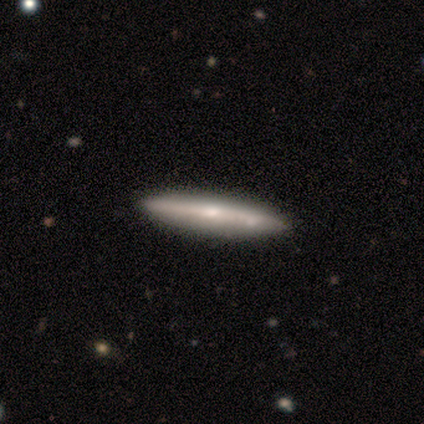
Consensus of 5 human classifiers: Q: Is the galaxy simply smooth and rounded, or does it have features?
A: featured or disk — 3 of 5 (60%).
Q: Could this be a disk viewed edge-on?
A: yes — 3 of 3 (100%).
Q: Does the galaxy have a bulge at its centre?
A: rounded — 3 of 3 (100%).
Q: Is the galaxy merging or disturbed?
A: none — 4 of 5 (80%).